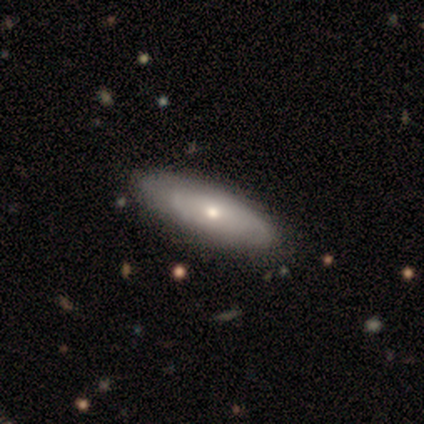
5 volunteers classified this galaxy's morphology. Smooth or featured? 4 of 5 (80%) said featured or disk. Edge-on disk? 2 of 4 (50%, tied with no) said yes. Edge-on bulge? 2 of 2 (100%) said none. Merging? 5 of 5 (100%) said none.